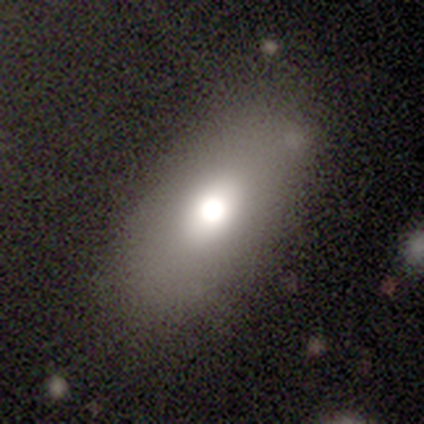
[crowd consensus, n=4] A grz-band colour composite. It shows a smooth galaxy with no disk features (100%) that is in between round and cigar-shaped (100%). Merging: none (100%).